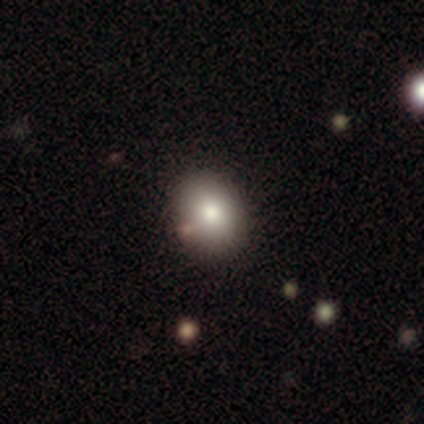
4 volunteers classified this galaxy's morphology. Smooth or featured: smooth — 100%
How rounded: in between — 75% (round — 25%)
Merging: none — 75% (minor disturbance — 25%)